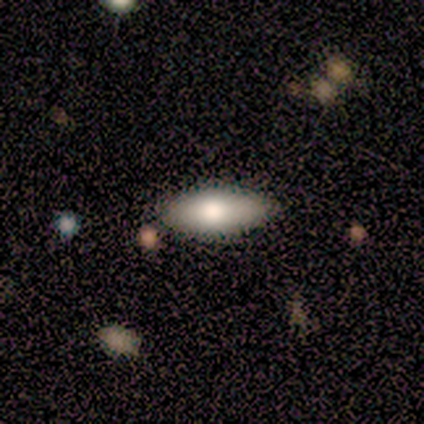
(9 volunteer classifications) Smooth or featured? 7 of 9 (78%) said smooth. How rounded? 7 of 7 (100%) said in between. Merging? 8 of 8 (100%) said none.